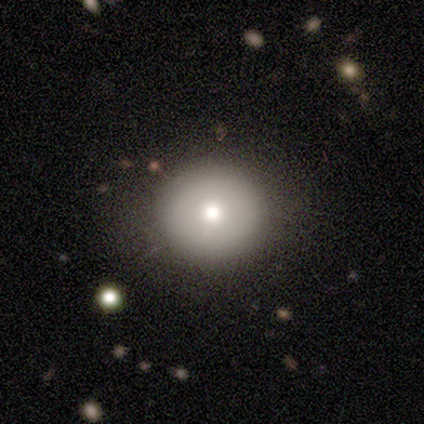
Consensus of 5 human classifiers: Smooth or featured?
  - smooth: 60% *
  - featured or disk: 40%
  - star or artifact: 0%
How rounded?
  - round: 100% *
  - in between: 0%
  - cigar-shaped: 0%
Merging?
  - none: 100% *
  - minor disturbance: 0%
  - major disturbance: 0%
  - merger: 0%